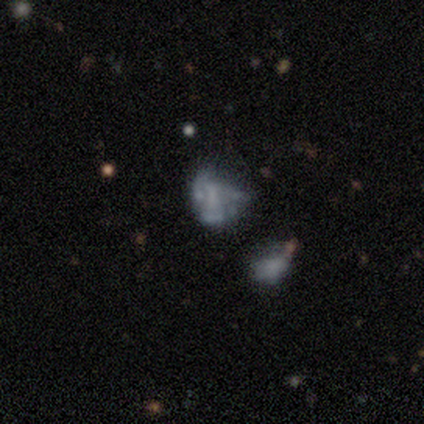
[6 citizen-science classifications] This is marginally a smooth galaxy (33%, tied with featured or disk and star or artifact). How rounded: possibly round (50%, tied with in between). Merging: likely none (75%).